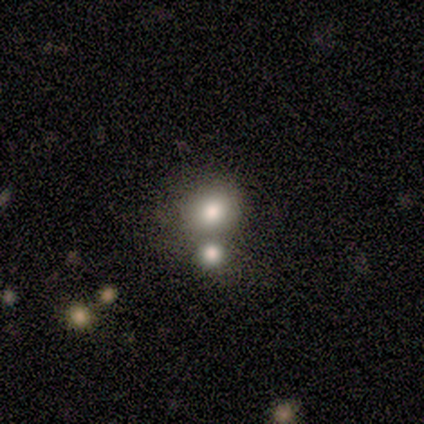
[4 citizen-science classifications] Smooth or featured?
  - smooth: 100% *
  - featured or disk: 0%
  - star or artifact: 0%
How rounded?
  - round: 100% *
  - in between: 0%
  - cigar-shaped: 0%
Merging?
  - merger: 75% *
  - none: 25%
  - minor disturbance: 0%
  - major disturbance: 0%